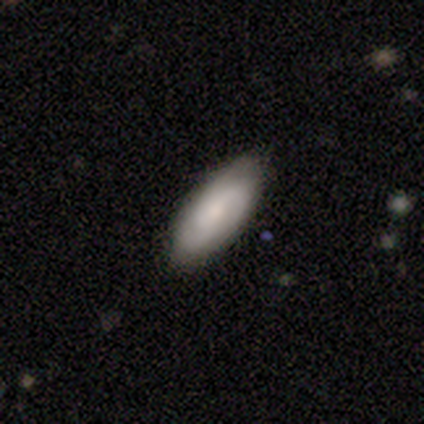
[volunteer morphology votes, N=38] A smooth galaxy with no disk features (50%, tied with featured or disk) that is in between round and cigar-shaped (100%).

Vote fractions:
- Smooth or featured? smooth: 50% (tied) / featured or disk: 50% (tied) / star or artifact: 0%
- How rounded? in between: 100% / round: 0% / cigar-shaped: 0%
- Merging? none: 53% / minor disturbance: 11% / major disturbance: 3% / merger: 0%